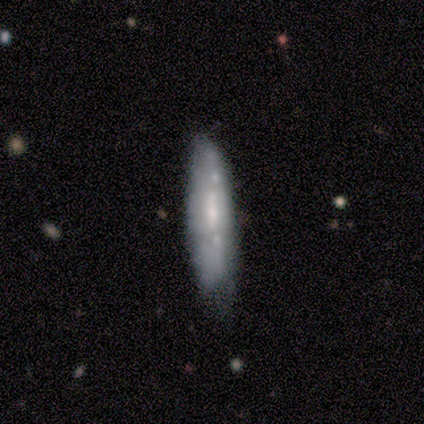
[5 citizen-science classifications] Smooth or featured? smooth (60%)
How rounded? cigar-shaped (67%)
Merging? minor disturbance (60%)